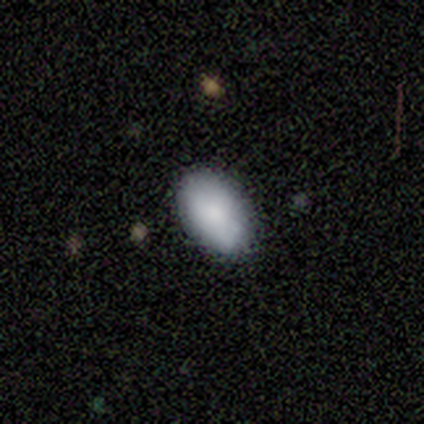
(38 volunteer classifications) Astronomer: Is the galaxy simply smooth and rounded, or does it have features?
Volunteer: smooth — 82%.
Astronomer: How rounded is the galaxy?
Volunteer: in between — 90%.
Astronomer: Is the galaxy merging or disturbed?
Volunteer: none — 88%.